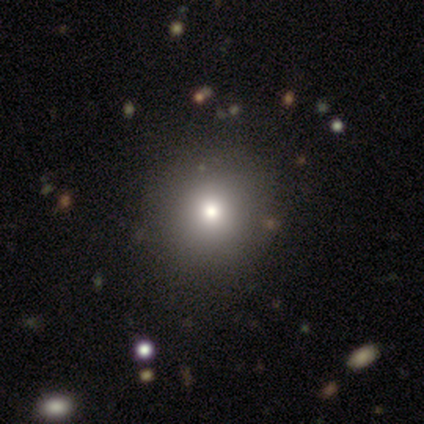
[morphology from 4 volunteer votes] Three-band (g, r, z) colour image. It shows a smooth galaxy with no disk features (75%) that is round (100%). Merging: none (100%).